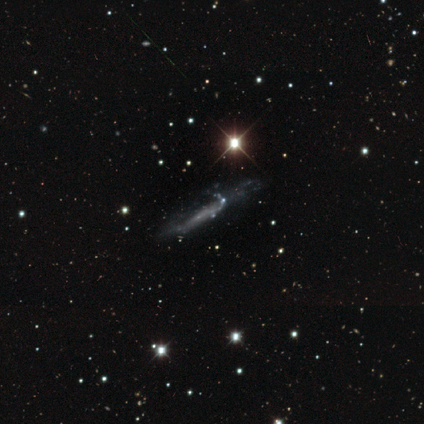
Smooth or featured? featured or disk (57%)
Edge-on disk? no (53%)
Bar? no (95%)
Spiral arms? no (79%)
Bulge size? none (84%)
Merging? none (52%)